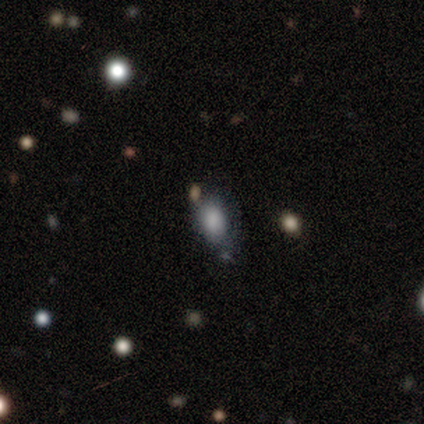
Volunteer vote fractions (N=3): smooth 67%, star or artifact 33%, featured or disk 0%. Down the decision tree: how rounded — in between (100%); merging — none (50%, tied with merger).